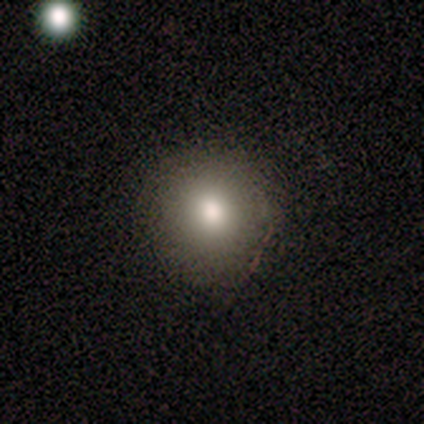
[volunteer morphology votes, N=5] smooth_or_featured: smooth (p=1.00)
how_rounded: round (p=1.00)
merging: none (p=1.00)